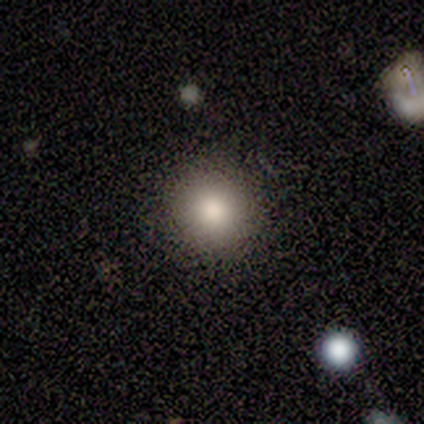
This is clearly a smooth galaxy (83%). How rounded: clearly round (100%). Merging: clearly none (83%).